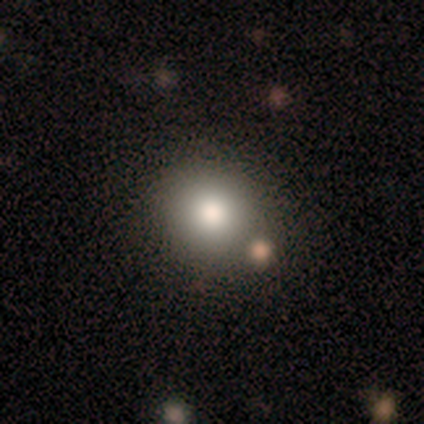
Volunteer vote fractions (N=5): Smooth or featured? 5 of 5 (100%) said smooth. How rounded? 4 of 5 (80%) said round. Merging? 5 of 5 (100%) said none.